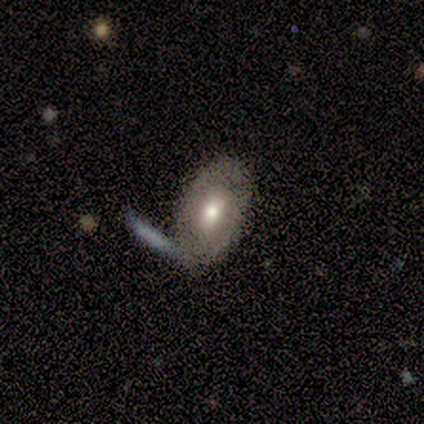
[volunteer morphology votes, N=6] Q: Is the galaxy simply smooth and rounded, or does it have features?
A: featured or disk — 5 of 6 (83%).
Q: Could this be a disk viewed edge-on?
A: no — 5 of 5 (100%).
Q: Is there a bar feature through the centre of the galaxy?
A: no — 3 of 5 (60%).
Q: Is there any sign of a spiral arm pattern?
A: yes — 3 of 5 (60%).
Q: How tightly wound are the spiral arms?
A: tight — 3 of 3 (100%).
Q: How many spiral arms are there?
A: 2 — 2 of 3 (67%).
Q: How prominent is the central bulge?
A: moderate — 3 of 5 (60%).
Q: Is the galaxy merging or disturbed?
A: none — 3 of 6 (50%).